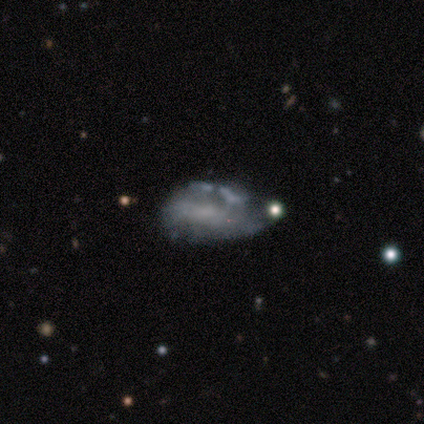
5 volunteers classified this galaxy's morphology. Smooth or featured: featured or disk — 60% (smooth — 40%)
Edge-on disk: no — 100%
Bar: no — 67% (weak — 33%)
Spiral arms: no — 67% (yes — 33%)
Bulge size: none — 67% (small — 33%)
Merging: major disturbance — 60% (minor disturbance — 40%)